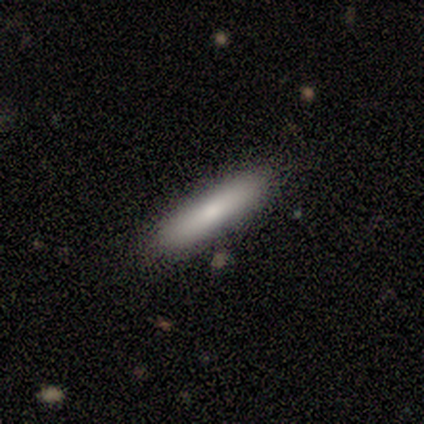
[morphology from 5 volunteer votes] Smooth or featured: smooth — 60% (featured or disk — 20%)
How rounded: cigar-shaped — 100%
Merging: none — 75% (minor disturbance — 25%)